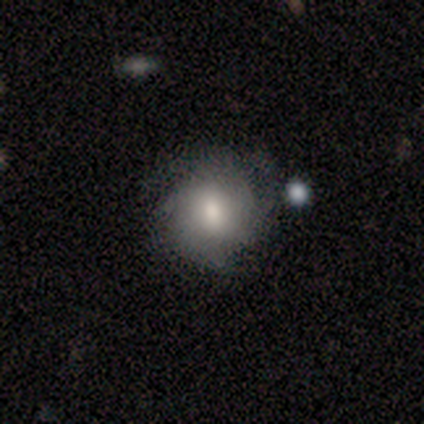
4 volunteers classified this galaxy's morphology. Q: Smooth or featured?
A: smooth (50%); tied with: featured or disk (50%)
Q: How rounded?
A: round (100%)
Q: Merging?
A: none (75%); runner-up: minor disturbance (25%)